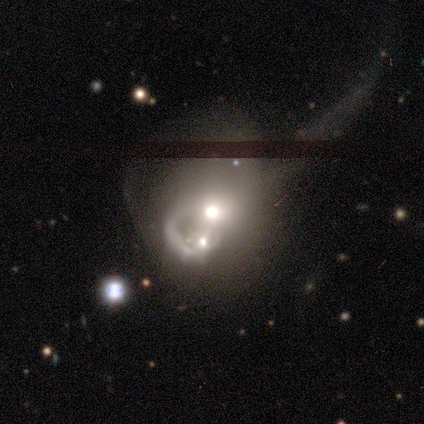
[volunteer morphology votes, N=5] smooth 40% (tied), featured or disk 40% (tied), star or artifact 20%. Down the decision tree: how rounded — round (50%, tied with in between); merging — merger (50%).